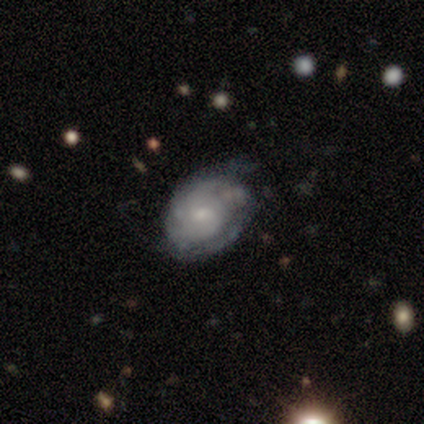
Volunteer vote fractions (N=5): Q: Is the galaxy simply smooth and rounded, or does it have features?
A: smooth — 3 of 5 (60%).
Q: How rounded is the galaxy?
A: in between — 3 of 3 (100%).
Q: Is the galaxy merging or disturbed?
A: minor disturbance — 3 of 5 (60%).